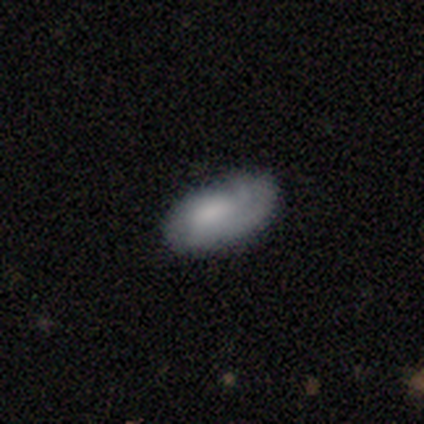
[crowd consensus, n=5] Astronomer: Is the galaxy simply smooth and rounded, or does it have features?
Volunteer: smooth — 40%, tied with featured or disk at 40%.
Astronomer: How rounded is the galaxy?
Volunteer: in between — 100%.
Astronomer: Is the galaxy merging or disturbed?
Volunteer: none — 75%.